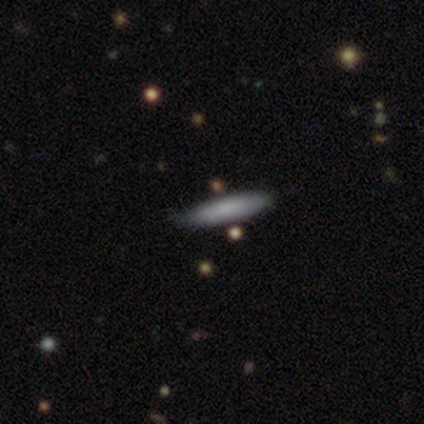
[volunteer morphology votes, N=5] smooth 80%, star or artifact 20%, featured or disk 0%. Down the decision tree: how rounded — cigar-shaped (100%); merging — none (100%).